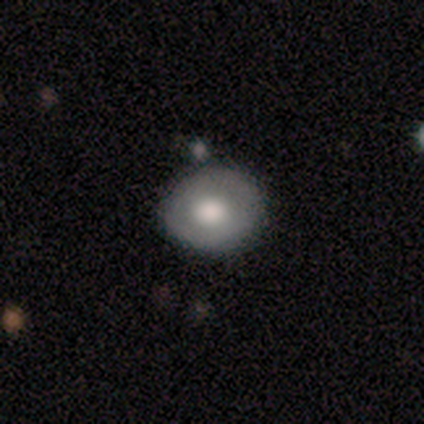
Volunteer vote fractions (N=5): Morphology: type=featured or disk (60%); edge-on=no (100%); bar=no (67%); spiral arms=no (100%); bulge=large (67%); merging=none (80%).